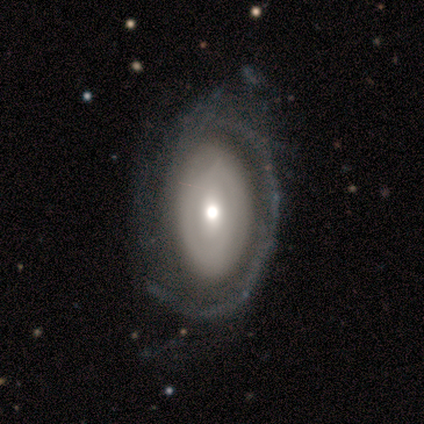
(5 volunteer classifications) Smooth or featured: smooth — 40% (tied with featured or disk — 40%)
How rounded: in between — 100%
Merging: minor disturbance — 75% (major disturbance — 25%)